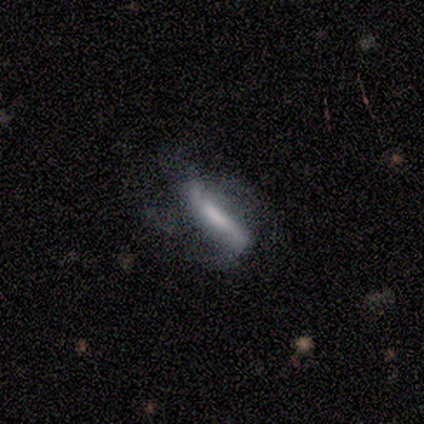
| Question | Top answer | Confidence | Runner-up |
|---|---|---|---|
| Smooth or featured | featured or disk | 60% | smooth (20%) |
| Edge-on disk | no | 100% | — |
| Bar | strong | 100% | — |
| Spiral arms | yes | 100% | — |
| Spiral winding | medium | 67% | loose (33%) |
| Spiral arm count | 2 | 100% | — |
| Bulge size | large | 100% | — |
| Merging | none | 75% | minor disturbance (25%) |